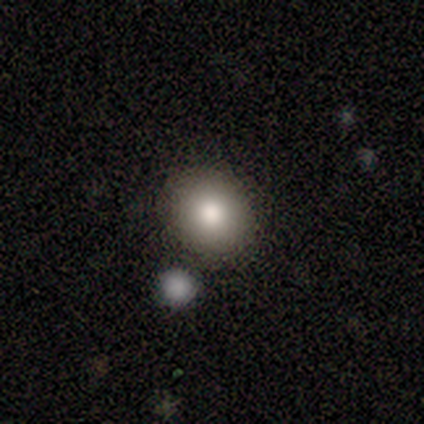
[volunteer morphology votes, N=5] type=smooth (60%); roundness=in between (67%); merging=none (25%, tied with minor disturbance, major disturbance and merger).